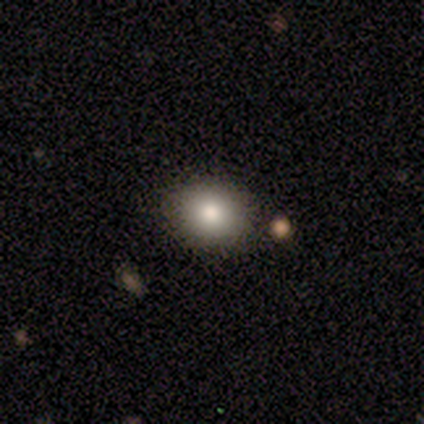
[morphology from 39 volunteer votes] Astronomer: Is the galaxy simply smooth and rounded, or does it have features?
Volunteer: smooth — 79%.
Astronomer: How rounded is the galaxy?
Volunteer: round — 55% (runner-up: in between, 45%).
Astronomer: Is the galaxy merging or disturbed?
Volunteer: none — 82%.